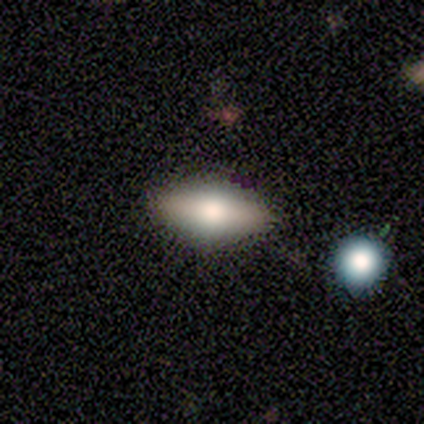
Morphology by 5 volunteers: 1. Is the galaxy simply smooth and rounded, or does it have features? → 80% featured or disk, 20% smooth, 0% star or artifact.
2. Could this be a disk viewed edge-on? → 75% yes, 25% no.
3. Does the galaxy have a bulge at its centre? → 67% rounded, 33% none, 0% boxy.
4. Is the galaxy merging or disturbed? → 100% none, 0% minor disturbance, 0% major disturbance, 0% merger.